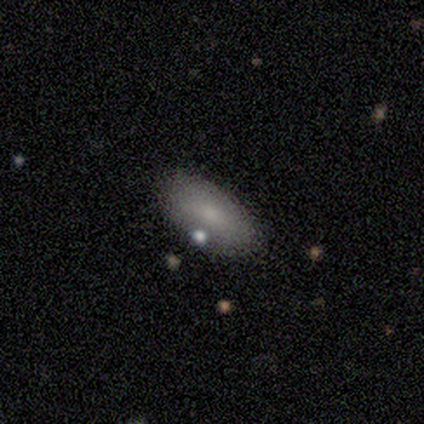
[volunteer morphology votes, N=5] smooth 100%, featured or disk 0%, star or artifact 0%. Down the decision tree: how rounded — in between (60%); merging — none (80%).